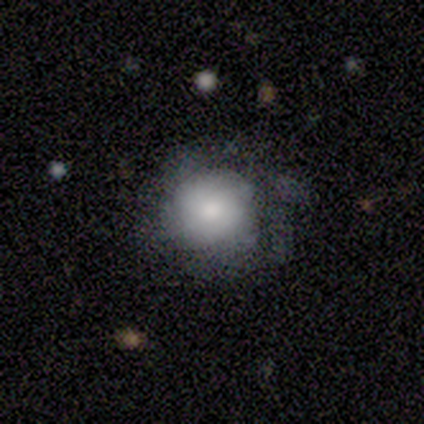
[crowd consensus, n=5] Smooth or featured?
  - smooth: 60% *
  - featured or disk: 20%
  - star or artifact: 20%
How rounded?
  - round: 67% *
  - in between: 33%
  - cigar-shaped: 0%
Merging?
  - none: 50% *
  - minor disturbance: 25%
  - major disturbance: 25%
  - merger: 0%